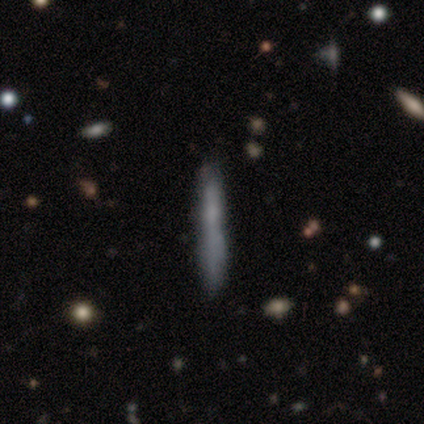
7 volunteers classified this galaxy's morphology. smooth_or_featured: smooth (p=0.86) [alt: featured or disk p=0.14]
how_rounded: cigar-shaped (p=1.00)
merging: none (p=0.71) [alt: minor disturbance p=0.14]